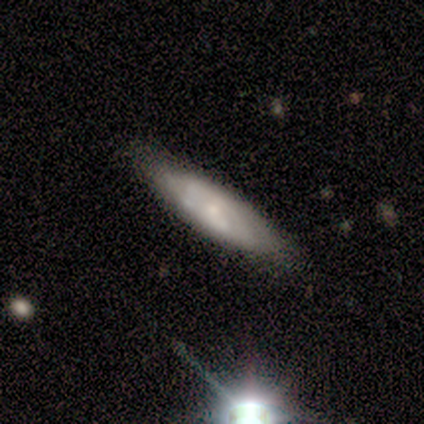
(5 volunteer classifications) smooth 60%, featured or disk 20%, star or artifact 20%. Down the decision tree: how rounded — in between (67%); merging — none (100%).